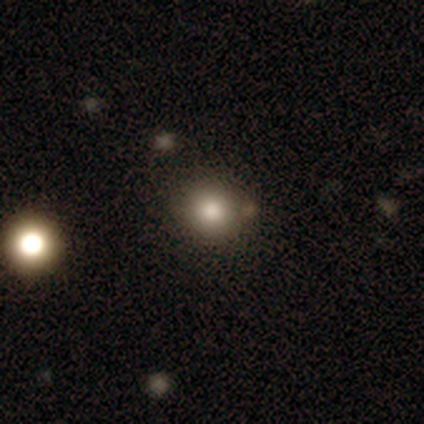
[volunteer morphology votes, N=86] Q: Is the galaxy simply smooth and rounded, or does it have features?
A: smooth — 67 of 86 (78%).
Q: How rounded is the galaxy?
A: round — 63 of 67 (94%).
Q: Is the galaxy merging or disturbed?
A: none — 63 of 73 (86%).